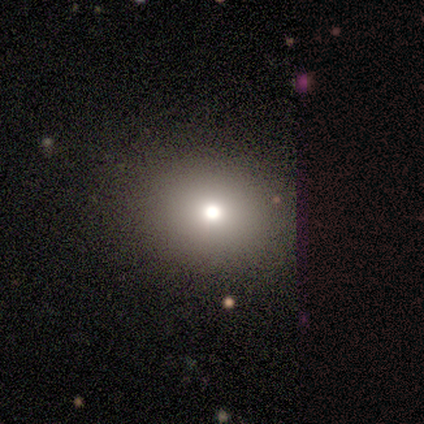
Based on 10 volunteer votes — Morphology: type=smooth (90%); roundness=round (56%); merging=none (67%).